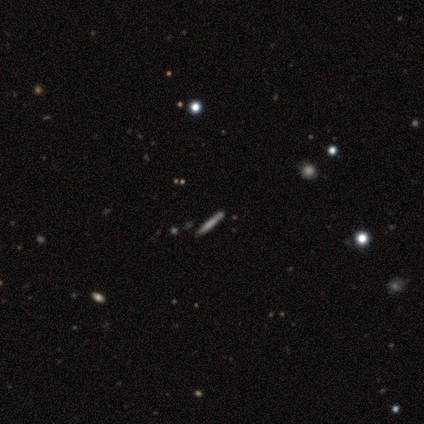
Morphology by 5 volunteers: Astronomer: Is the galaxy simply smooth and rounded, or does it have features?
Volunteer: smooth — 60% (runner-up: featured or disk, 40%).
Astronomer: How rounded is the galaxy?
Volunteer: cigar-shaped — 100%.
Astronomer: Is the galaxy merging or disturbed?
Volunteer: none — 60%.